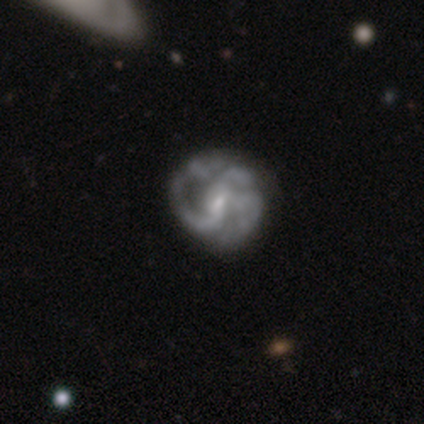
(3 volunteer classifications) A featured or disk galaxy (100%) with no bar (67%), 2 (100%) medium (100%) spiral arms (67%) and a small central bulge (67%). Merging: none (67%).